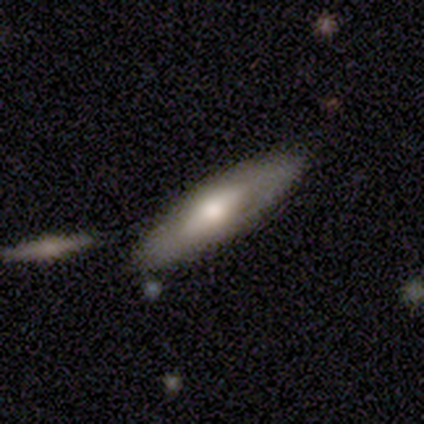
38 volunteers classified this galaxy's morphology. smooth 47% (tied), featured or disk 47% (tied), star or artifact 5%. Down the decision tree: how rounded — cigar-shaped (67%); merging — none (81%).